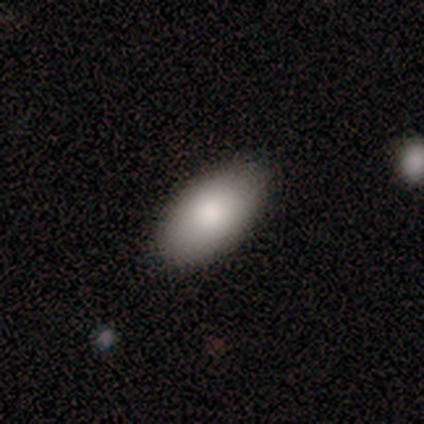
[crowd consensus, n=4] Q: Smooth or featured?
A: smooth (75%); runner-up: star or artifact (25%)
Q: How rounded?
A: in between (100%)
Q: Merging?
A: none (100%)